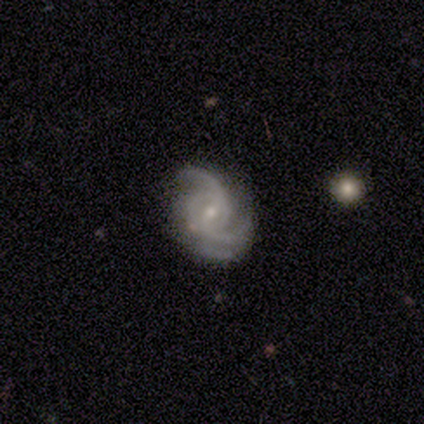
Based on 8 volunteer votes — Smooth or featured? featured or disk (100%)
Edge-on disk? no (100%)
Bar? weak (62%)
Spiral arms? yes (100%)
Spiral winding? medium (62%)
Spiral arm count? 2 (50%, tied with 3)
Bulge size? small (75%)
Merging? none (62%)